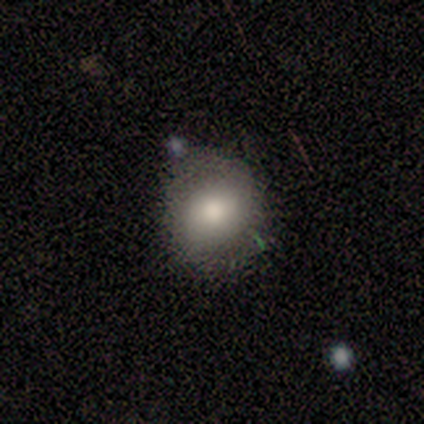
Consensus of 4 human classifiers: A smooth galaxy with no disk features (100%) that is round (75%).

Vote fractions:
- Smooth or featured? smooth: 100% / featured or disk: 0% / star or artifact: 0%
- How rounded? round: 75% / in between: 25% / cigar-shaped: 0%
- Merging? none: 100% / minor disturbance: 0% / major disturbance: 0% / merger: 0%